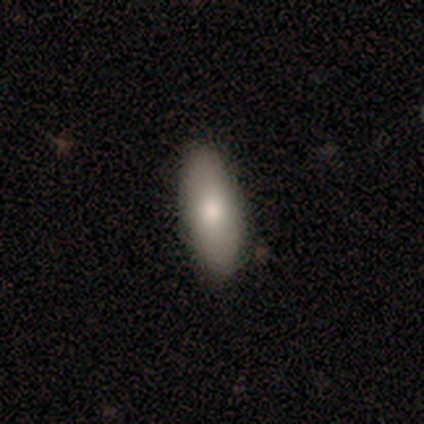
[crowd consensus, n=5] A smooth galaxy with no disk features (100%) that is in between round and cigar-shaped (100%).

Vote fractions:
- Smooth or featured? smooth: 100% / featured or disk: 0% / star or artifact: 0%
- How rounded? in between: 100% / round: 0% / cigar-shaped: 0%
- Merging? none: 100% / minor disturbance: 0% / major disturbance: 0% / merger: 0%